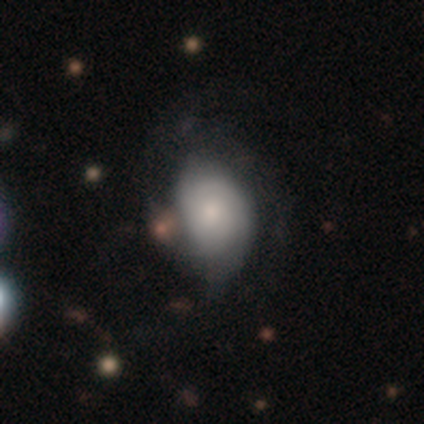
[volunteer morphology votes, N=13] Smooth or featured?
  - smooth: 54% *
  - featured or disk: 46%
  - star or artifact: 0%
How rounded?
  - in between: 100% *
  - round: 0%
  - cigar-shaped: 0%
Merging?
  - minor disturbance: 46% *
  - none: 23%
  - major disturbance: 23%
  - merger: 8%